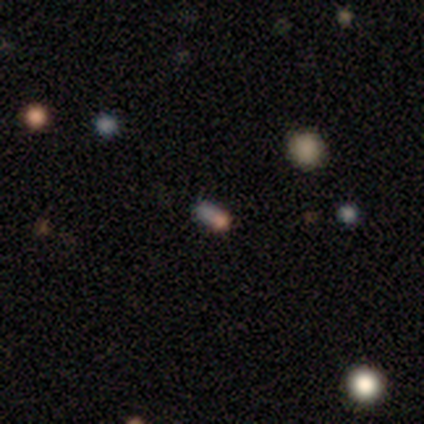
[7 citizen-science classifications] This is possibly a star or artifact rather than a galaxy (57%).